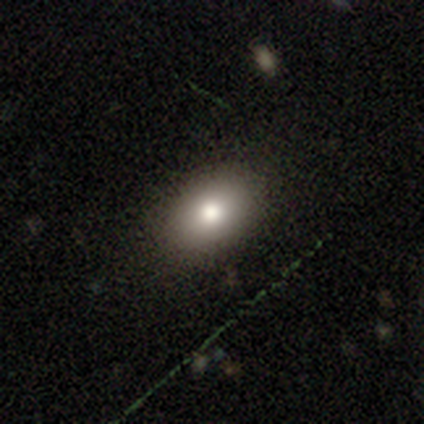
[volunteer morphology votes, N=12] A smooth galaxy with no disk features (83%) that is in between round and cigar-shaped (100%). Merging: none (100%).